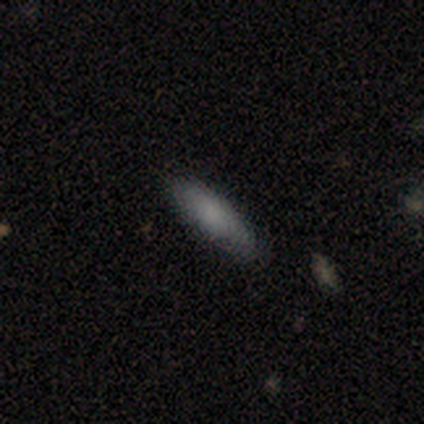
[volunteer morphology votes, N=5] This is clearly a smooth galaxy (100%). How rounded: likely in between (60%). Merging: clearly none (100%).